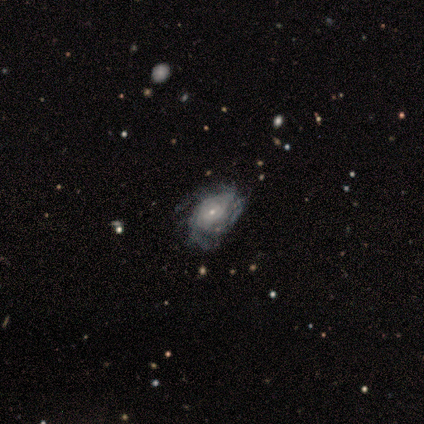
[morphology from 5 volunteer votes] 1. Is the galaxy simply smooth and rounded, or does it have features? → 80% featured or disk, 20% star or artifact, 0% smooth.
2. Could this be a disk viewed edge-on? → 100% no, 0% yes.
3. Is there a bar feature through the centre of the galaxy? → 50% weak (tied), 50% no (tied), 0% strong.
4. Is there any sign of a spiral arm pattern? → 100% yes, 0% no.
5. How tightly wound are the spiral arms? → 100% tight, 0% medium, 0% loose.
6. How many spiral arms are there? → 75% can't tell, 25% 1, 0% 2, 0% 3, 0% 4, 0% more than 4.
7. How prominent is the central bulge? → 100% small, 0% dominant, 0% large, 0% moderate, 0% none.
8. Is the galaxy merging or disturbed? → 50% none, 25% minor disturbance, 25% major disturbance, 0% merger.